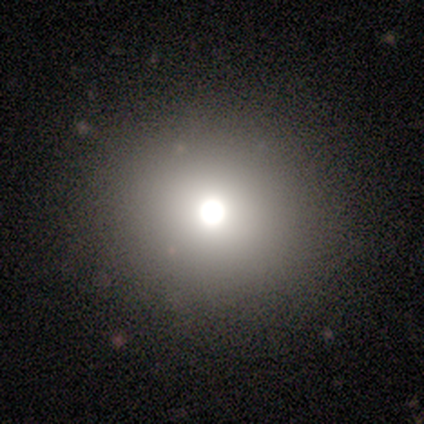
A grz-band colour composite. It shows a smooth galaxy with no disk features (80%) that is round (100%). Merging: none (100%).